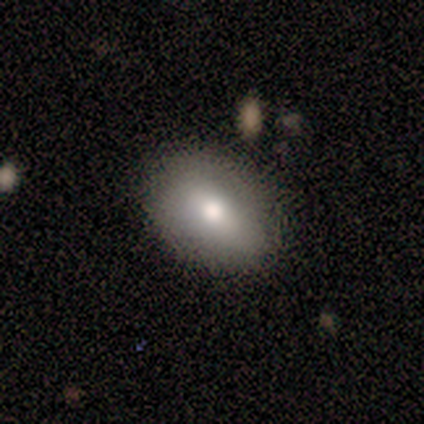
Q: Smooth or featured?
A: smooth (100%)
Q: How rounded?
A: in between (60%); runner-up: round (40%)
Q: Merging?
A: none (80%); runner-up: minor disturbance (20%)